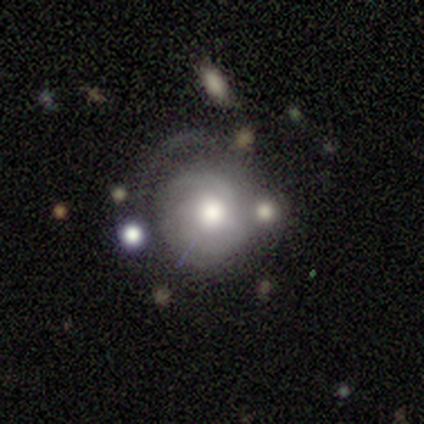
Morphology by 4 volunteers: Smooth or featured? featured or disk (100%)
Edge-on disk? no (100%)
Bar? no (100%)
Spiral arms? yes (75%)
Spiral winding? tight (100%)
Spiral arm count? can't tell (100%)
Bulge size? large (50%, tied with moderate)
Merging? major disturbance (50%)